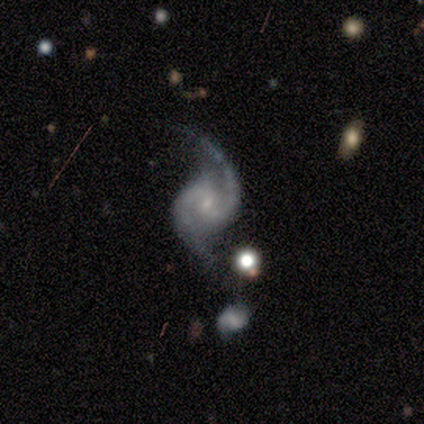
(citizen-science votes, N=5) This is clearly a featured or disk galaxy (80%). It is clearly not viewed edge-on (100%). Bar: possibly no (50%). Spiral arm pattern: clearly yes (100%). Spiral arm count: likely 2 (75%). Spiral winding: possibly tight (50%, tied with medium). Central bulge: likely small (75%). Merging: marginally none (40%, tied with minor disturbance).